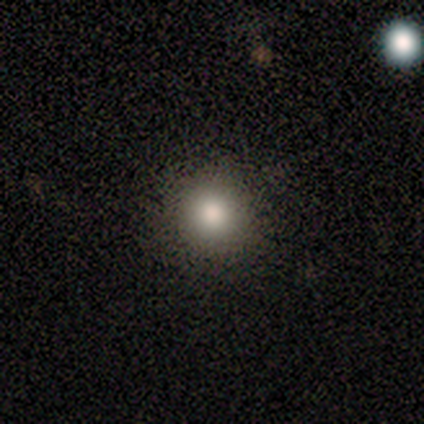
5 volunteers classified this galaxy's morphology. type=smooth (100%); roundness=round (100%); merging=none (100%).